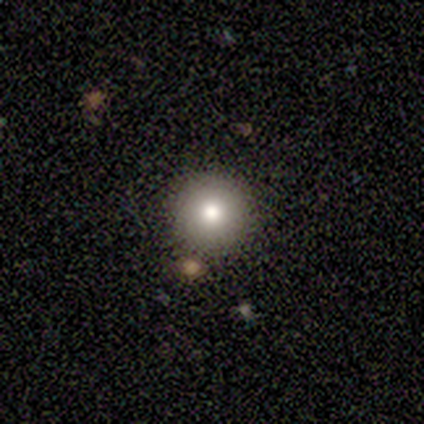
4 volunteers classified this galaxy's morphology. Smooth or featured: smooth — 75% (featured or disk — 25%)
How rounded: round — 100%
Merging: none — 100%